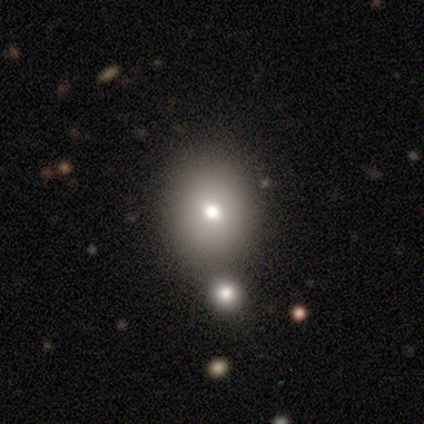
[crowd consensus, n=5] This is likely a smooth galaxy (60%). How rounded: likely round (67%). Merging: likely none (60%).